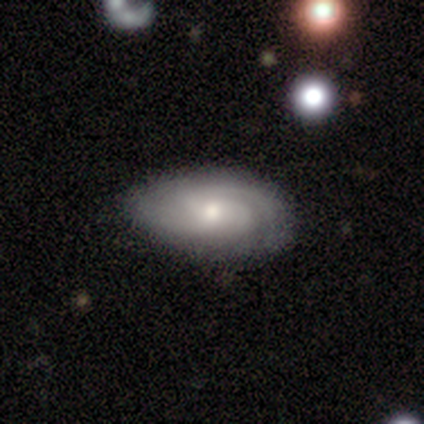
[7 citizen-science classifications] Volunteers were most divided on "spiral winding" (2-way tie): tight: 50%, medium: 50%, loose: 0%. More confident: edge-on disk — no (100%); bar — no (80%); spiral arms — yes (80%); spiral arm count — 2 (75%); smooth or featured — featured or disk (71%); bulge size — moderate (60%); merging — none (57%).